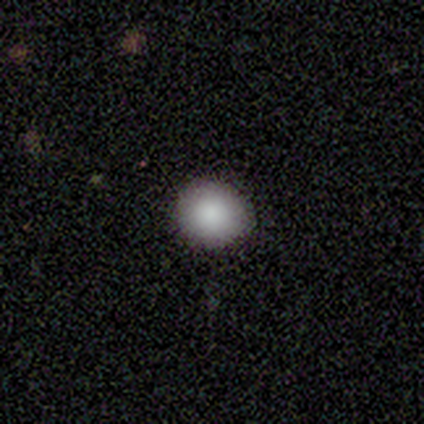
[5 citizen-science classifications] This appears to be a smooth galaxy with no disk features (100%) that is round (100%). Merging: none (100%).